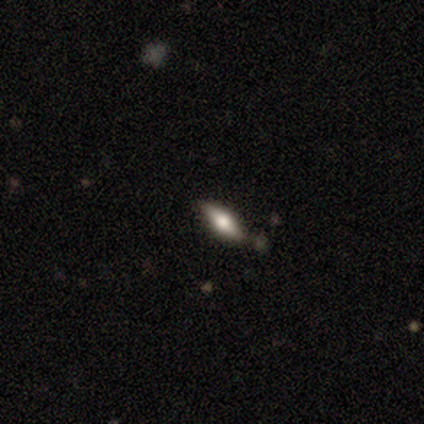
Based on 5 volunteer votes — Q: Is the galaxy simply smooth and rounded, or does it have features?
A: smooth — 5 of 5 (100%).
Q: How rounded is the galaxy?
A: in between — 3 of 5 (60%).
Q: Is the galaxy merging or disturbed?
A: none — 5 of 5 (100%).